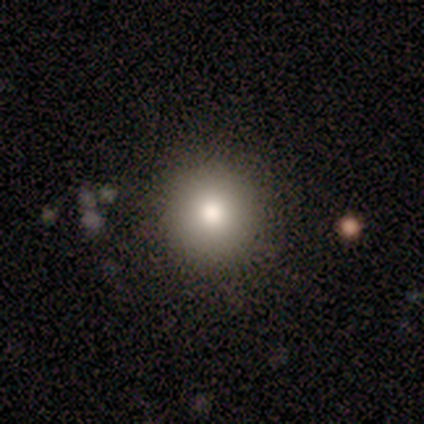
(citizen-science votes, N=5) Smooth or featured?
  - smooth: 80% *
  - featured or disk: 20%
  - star or artifact: 0%
How rounded?
  - round: 100% *
  - in between: 0%
  - cigar-shaped: 0%
Merging?
  - none: 80% *
  - minor disturbance: 20%
  - major disturbance: 0%
  - merger: 0%